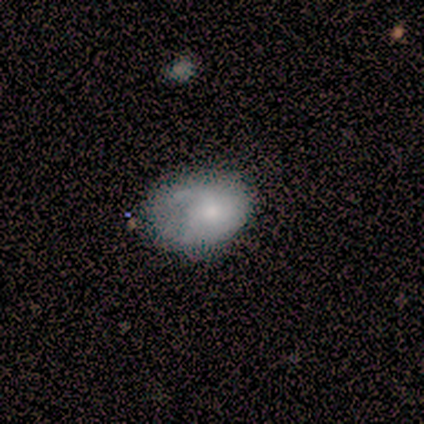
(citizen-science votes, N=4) smooth-or-featured: smooth: 75% | featured or disk: 25% | star or artifact: 0%
  how-rounded: in between: 100% | round: 0% | cigar-shaped: 0%
  merging: none: 50% (tied) | minor disturbance: 50% (tied) | major disturbance: 0% | merger: 0%